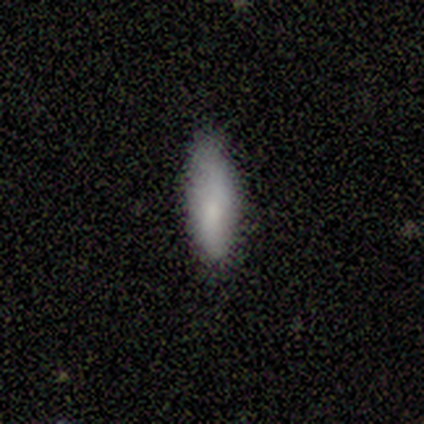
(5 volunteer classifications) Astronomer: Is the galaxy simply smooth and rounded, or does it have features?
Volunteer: smooth — 100%.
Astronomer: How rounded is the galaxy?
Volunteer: cigar-shaped — 60% (runner-up: in between, 40%).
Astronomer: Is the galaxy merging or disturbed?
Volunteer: none — 80%.